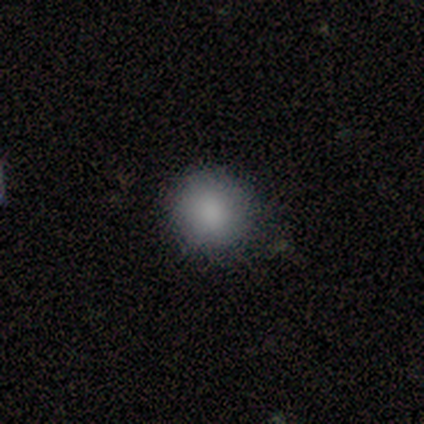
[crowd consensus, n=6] A smooth galaxy with no disk features (100%) that is round (100%).

Vote fractions:
- Smooth or featured? smooth: 100% / featured or disk: 0% / star or artifact: 0%
- How rounded? round: 100% / in between: 0% / cigar-shaped: 0%
- Merging? none: 83% / minor disturbance: 17% / major disturbance: 0% / merger: 0%